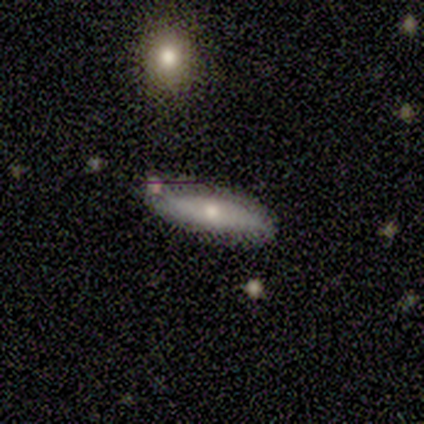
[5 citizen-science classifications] A smooth galaxy with no disk features (60%) that is cigar-shaped (67%). Merging: none (100%).